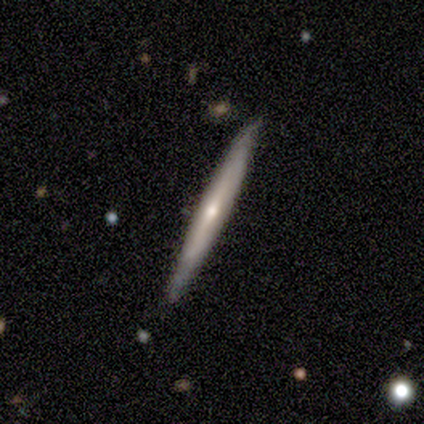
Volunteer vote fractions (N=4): Smooth or featured? 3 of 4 (75%) said featured or disk. Edge-on disk? 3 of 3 (100%) said yes. Edge-on bulge? 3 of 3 (100%) said rounded. Merging? 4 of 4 (100%) said none.